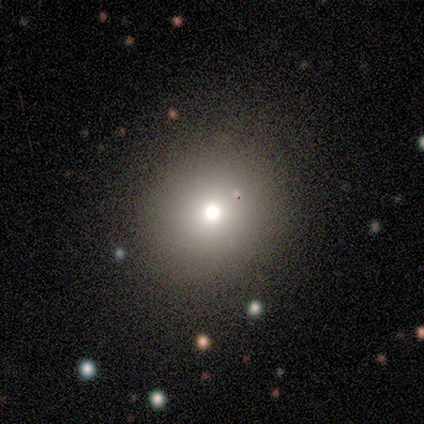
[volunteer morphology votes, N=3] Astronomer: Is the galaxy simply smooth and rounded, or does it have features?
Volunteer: featured or disk — 67%.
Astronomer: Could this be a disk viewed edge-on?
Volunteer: yes — 50%, tied with no at 50%.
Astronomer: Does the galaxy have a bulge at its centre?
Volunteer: rounded — 100%.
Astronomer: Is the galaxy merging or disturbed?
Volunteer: none — 100%.